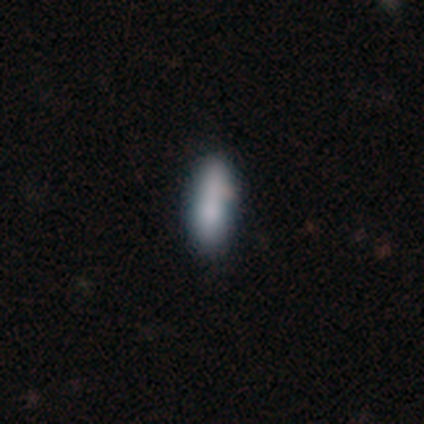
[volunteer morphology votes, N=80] smooth 78%, featured or disk 15%, star or artifact 8%. Down the decision tree: how rounded — in between (53%); merging — none (32%).